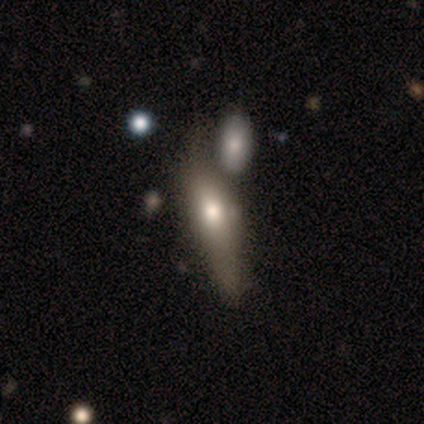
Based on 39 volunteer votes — Smooth or featured: smooth — 54% (featured or disk — 41%)
How rounded: cigar-shaped — 62% (in between — 33%)
Merging: merger — 32% (none — 30%)